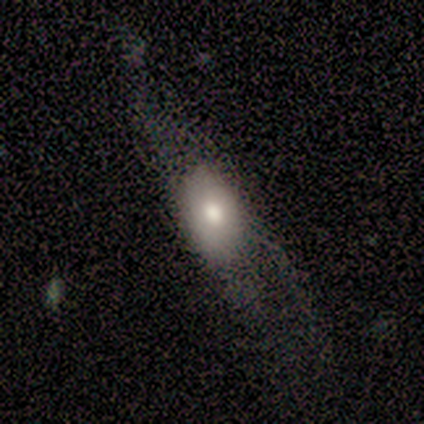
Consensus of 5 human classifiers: Smooth or featured: smooth — 80% (featured or disk — 20%)
How rounded: in between — 75% (cigar-shaped — 25%)
Merging: major disturbance — 60% (none — 40%)